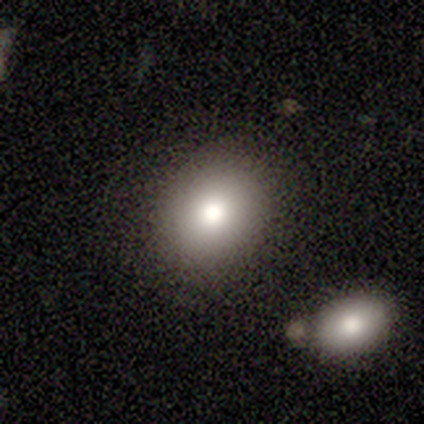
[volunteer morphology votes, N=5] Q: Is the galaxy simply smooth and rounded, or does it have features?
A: smooth — 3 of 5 (60%).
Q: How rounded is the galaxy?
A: round — 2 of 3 (67%).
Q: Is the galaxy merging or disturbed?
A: none — 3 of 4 (75%).